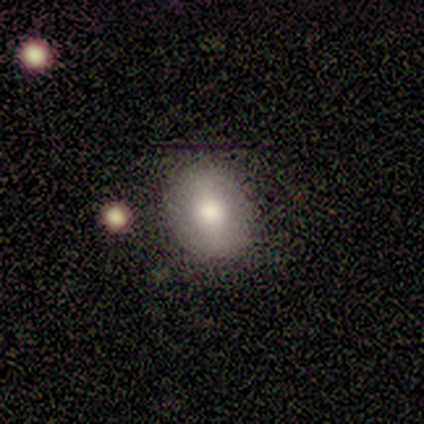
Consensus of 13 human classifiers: A smooth galaxy with no disk features (69%) that is round (56%). Merging: none (92%).